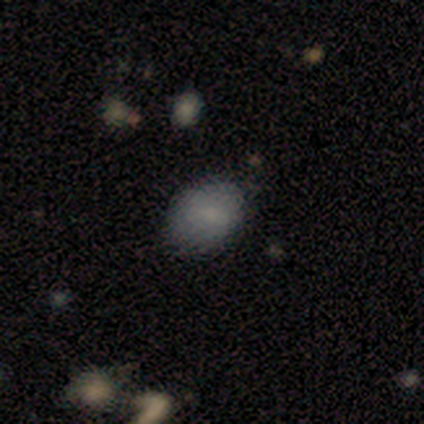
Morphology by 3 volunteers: smooth-or-featured: smooth: 100% | featured or disk: 0% | star or artifact: 0%
  how-rounded: in between: 67% | round: 33% | cigar-shaped: 0%
  merging: none: 100% | minor disturbance: 0% | major disturbance: 0% | merger: 0%